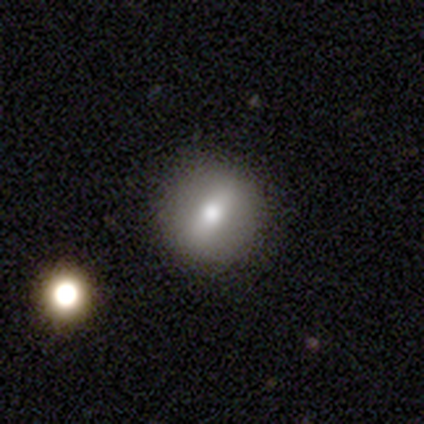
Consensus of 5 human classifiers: Volunteers were most divided on "smooth or featured": featured or disk: 60%, smooth: 40%, star or artifact: 0%. More confident: edge-on disk — no (100%); spiral arms — no (100%); merging — none (80%); bar — strong (67%); bulge size — small (67%).